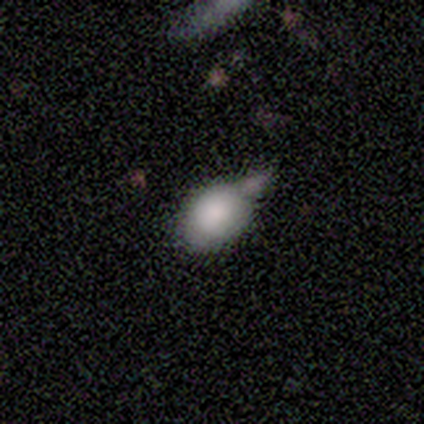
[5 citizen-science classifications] This appears to be a smooth galaxy with no disk features (80%) that is in between round and cigar-shaped (75%). Merging: none (75%).